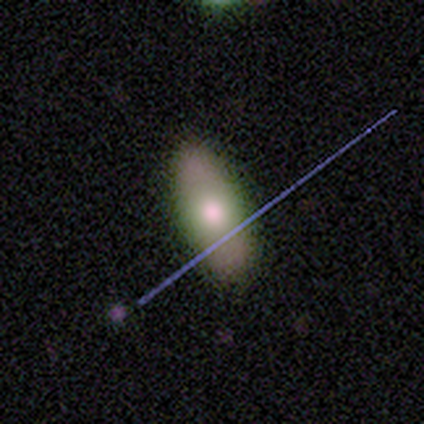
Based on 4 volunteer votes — Smooth or featured?
  - smooth: 50% * (tied)
  - featured or disk: 50% * (tied)
  - star or artifact: 0%
How rounded?
  - in between: 100% *
  - round: 0%
  - cigar-shaped: 0%
Merging?
  - none: 75% *
  - minor disturbance: 25%
  - major disturbance: 0%
  - merger: 0%